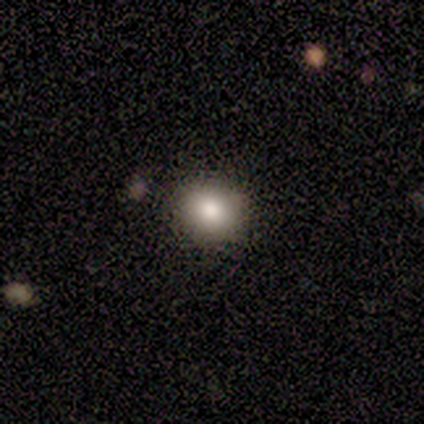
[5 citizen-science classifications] Volunteers were most divided on "how rounded": round: 80%, in between: 20%, cigar-shaped: 0%. More confident: smooth or featured — smooth (100%); merging — none (100%).